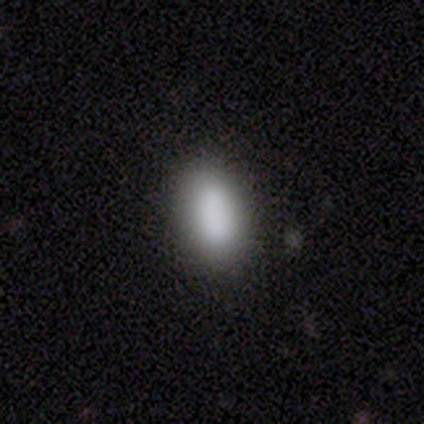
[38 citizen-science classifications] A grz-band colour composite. It shows a smooth galaxy with no disk features (87%) that is in between round and cigar-shaped (85%). Merging: none (83%).